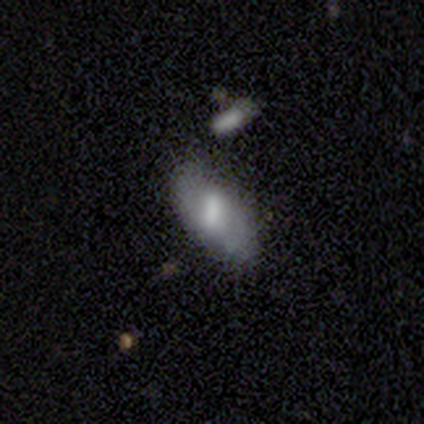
smooth_or_featured: featured or disk (p=0.60) [alt: smooth p=0.40]
disk_edge_on: no (p=1.00)
bar: strong (p=0.33) [tied with: weak p=0.33, no p=0.33]
has_spiral_arms: no (p=1.00)
bulge_size: moderate (p=0.67) [alt: small p=0.33]
merging: none (p=0.60) [alt: minor disturbance p=0.20]